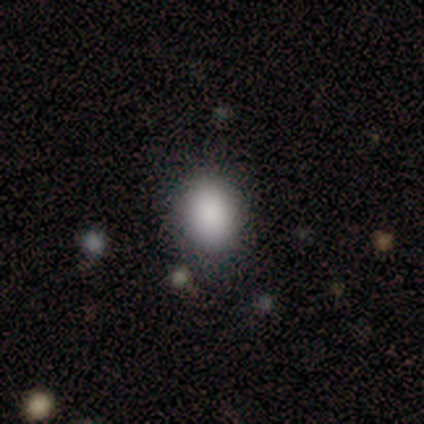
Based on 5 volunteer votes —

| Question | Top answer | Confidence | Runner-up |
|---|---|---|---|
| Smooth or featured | smooth | 100% | — |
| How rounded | in between | 100% | — |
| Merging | none | 60% | minor disturbance (20%) |